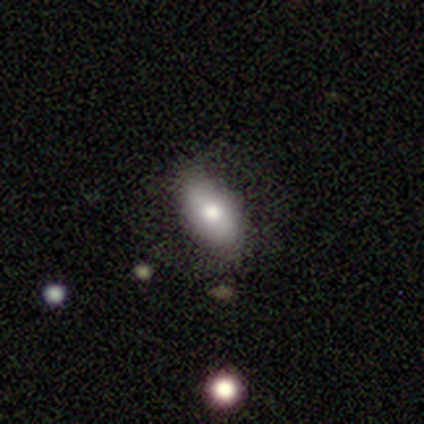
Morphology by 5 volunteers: smooth-or-featured: smooth: 40% (tied) | featured or disk: 40% (tied) | star or artifact: 20%
  how-rounded: in between: 100% | round: 0% | cigar-shaped: 0%
  merging: none: 75% | major disturbance: 25% | minor disturbance: 0% | merger: 0%